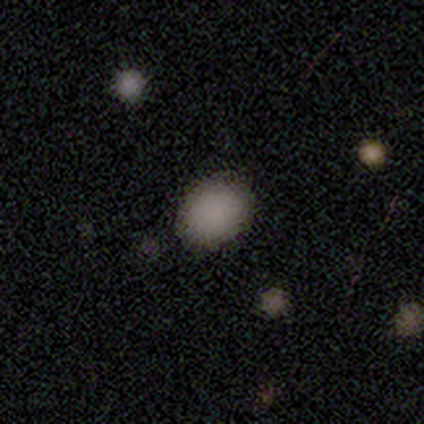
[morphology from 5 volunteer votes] Q: Smooth or featured?
A: smooth (100%)
Q: How rounded?
A: round (60%); runner-up: in between (40%)
Q: Merging?
A: none (80%); runner-up: minor disturbance (20%)